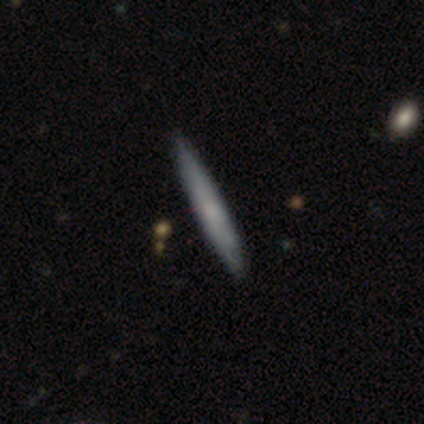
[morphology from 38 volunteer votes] Q: Smooth or featured?
A: smooth (53%); runner-up: featured or disk (34%)
Q: How rounded?
A: cigar-shaped (100%)
Q: Merging?
A: none (91%); runner-up: minor disturbance (9%)